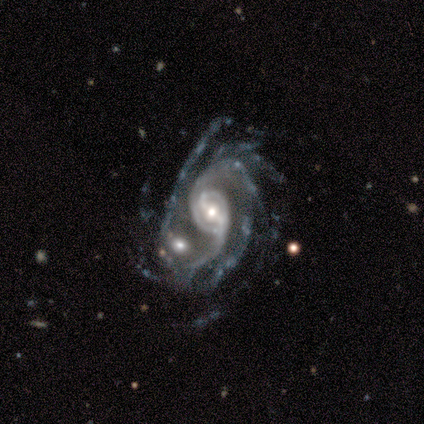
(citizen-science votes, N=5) A featured or disk galaxy (100%) with a weak bar (60%), 2 (80%) loose (60%) spiral arms (100%) and a small central bulge (60%).

Vote fractions:
- Smooth or featured? featured or disk: 100% / smooth: 0% / star or artifact: 0%
- Edge-on disk? no: 100% / yes: 0%
- Bar? weak: 60% / strong: 20% / no: 20%
- Spiral arms? yes: 100% / no: 0%
- Spiral winding? loose: 60% / tight: 40% / medium: 0%
- Spiral arm count? 2: 80% / 4: 20% / 1: 0% / 3: 0% / more than 4: 0% / can't tell: 0%
- Bulge size? small: 60% / moderate: 40% / dominant: 0% / large: 0% / none: 0%
- Merging? major disturbance: 40% / none: 20% / minor disturbance: 20% / merger: 20%